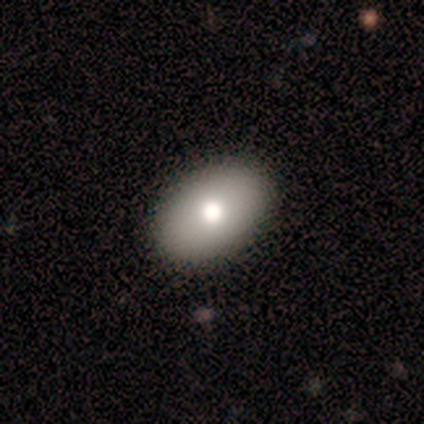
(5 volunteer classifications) Smooth or featured?
  - smooth: 100% *
  - featured or disk: 0%
  - star or artifact: 0%
How rounded?
  - in between: 100% *
  - round: 0%
  - cigar-shaped: 0%
Merging?
  - none: 100% *
  - minor disturbance: 0%
  - major disturbance: 0%
  - merger: 0%